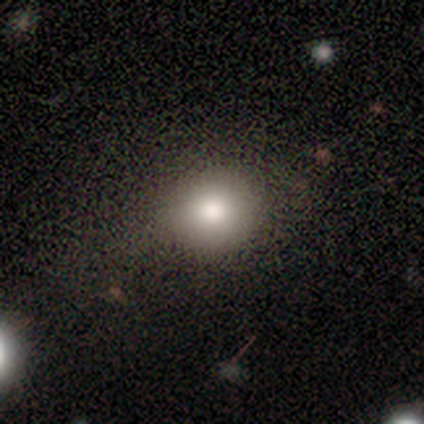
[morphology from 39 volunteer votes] Overall: smooth (82%). How rounded: round (88%). Merging: none (59%).